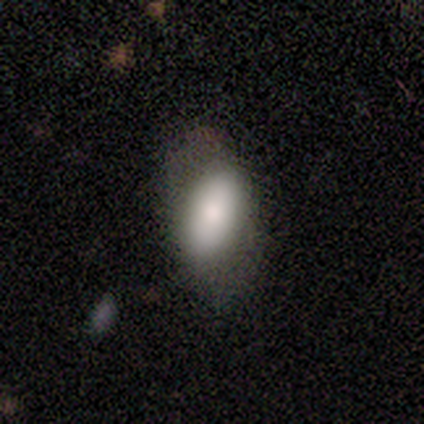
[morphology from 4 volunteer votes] This is likely a smooth galaxy (75%). How rounded: clearly in between (100%). Merging: likely none (67%).